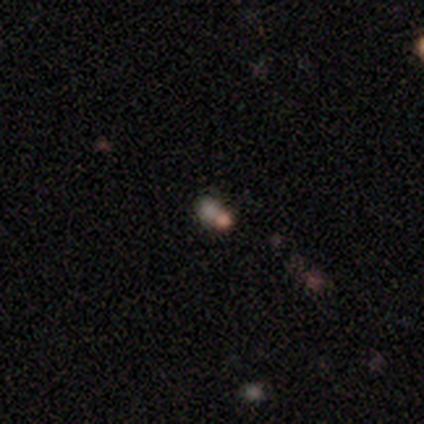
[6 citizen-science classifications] Overall: smooth (50%, tied with star or artifact). How rounded: round (67%; in between 33%). Merging: none (67%; merger 33%).